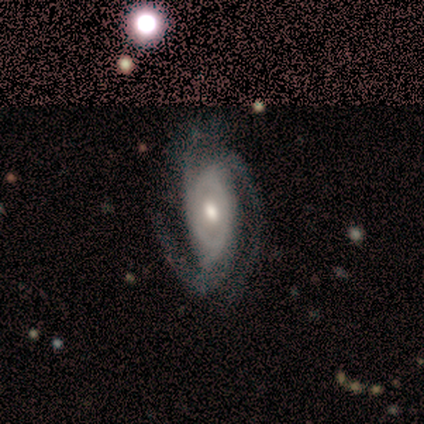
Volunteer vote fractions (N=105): This is clearly a featured or disk galaxy (89%). It is clearly not viewed edge-on (95%). Bar: possibly no (59%). Spiral arm pattern: clearly yes (98%). Spiral arm count: likely 3 (66%). Spiral winding: possibly medium (56%). Central bulge: likely moderate (75%). Merging: possibly none (55%).